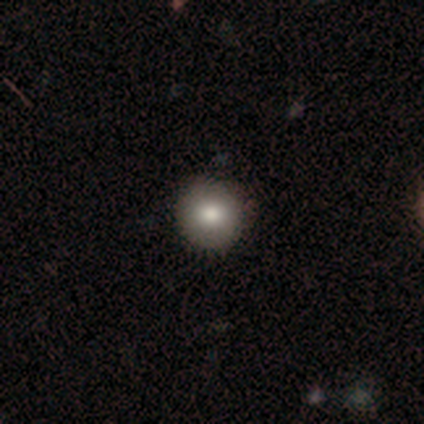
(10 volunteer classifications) smooth-or-featured: smooth: 100% | featured or disk: 0% | star or artifact: 0%
  how-rounded: round: 100% | in between: 0% | cigar-shaped: 0%
  merging: none: 100% | minor disturbance: 0% | major disturbance: 0% | merger: 0%